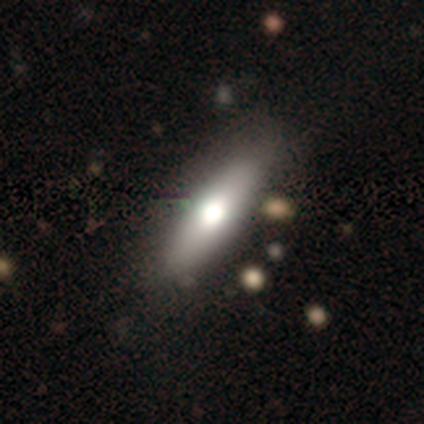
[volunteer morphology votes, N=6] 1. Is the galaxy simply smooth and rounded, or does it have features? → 67% smooth, 33% featured or disk, 0% star or artifact.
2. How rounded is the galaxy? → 100% cigar-shaped, 0% round, 0% in between.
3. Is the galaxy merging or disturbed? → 67% none, 33% minor disturbance, 0% major disturbance, 0% merger.